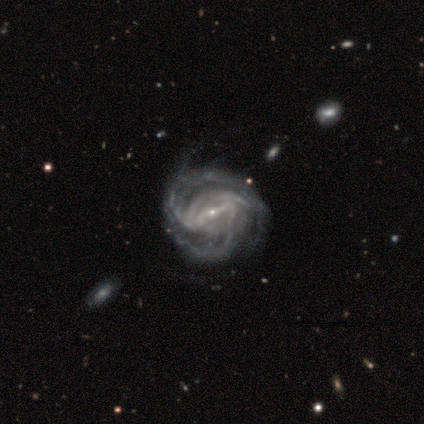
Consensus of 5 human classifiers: Smooth or featured? 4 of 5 (80%) said featured or disk. Edge-on disk? 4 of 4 (100%) said no. Bar? 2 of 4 (50%, tied with no) said strong. Spiral arms? 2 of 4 (50%, tied with no) said yes. Spiral winding? 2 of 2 (100%) said tight. Spiral arm count? 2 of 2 (100%) said can't tell. Bulge size? 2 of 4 (50%, tied with none) said small. Merging? 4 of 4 (100%) said none.